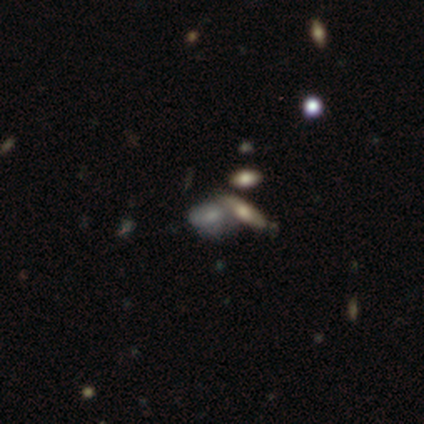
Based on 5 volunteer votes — Smooth or featured? featured or disk (40%, tied with star or artifact)
Edge-on disk? yes (50%, tied with no)
Edge-on bulge? none (100%)
Merging? minor disturbance (33%, tied with major disturbance and merger)